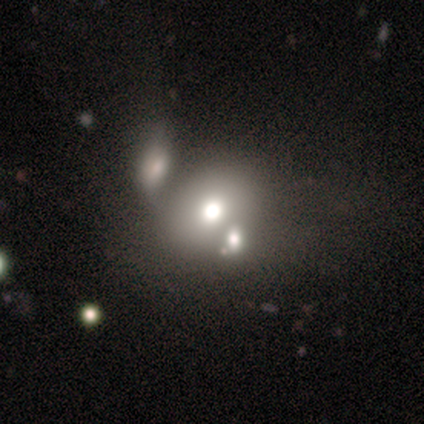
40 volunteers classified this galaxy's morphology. Q: Smooth or featured?
A: smooth (65%); runner-up: featured or disk (28%)
Q: How rounded?
A: round (65%); runner-up: in between (35%)
Q: Merging?
A: none (59%); runner-up: merger (35%)